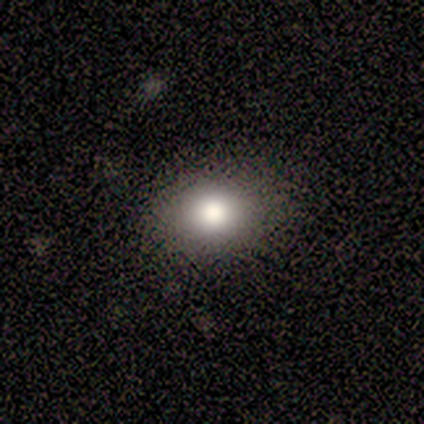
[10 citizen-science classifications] This appears to be a smooth galaxy with no disk features (60%) that is round (50%). Merging: none (78%).